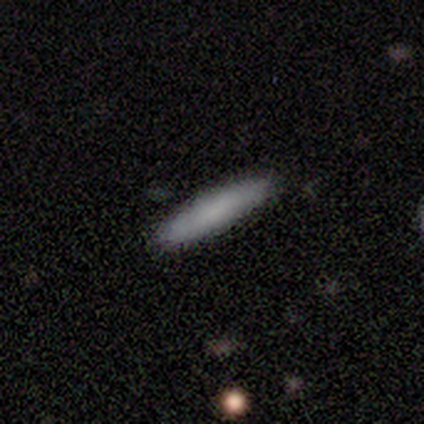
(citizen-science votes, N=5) Volunteers were most divided on "how rounded": cigar-shaped: 67%, in between: 33%, round: 0%. More confident: merging — none (100%); smooth or featured — smooth (60%).